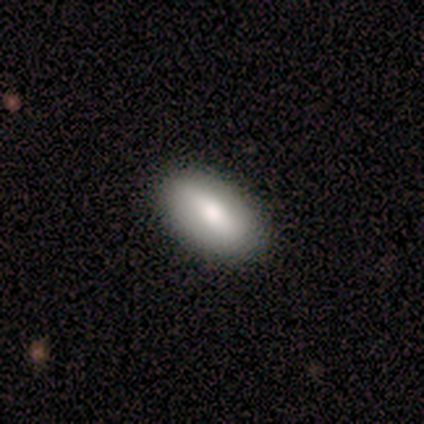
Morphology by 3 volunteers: Smooth or featured? 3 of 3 (100%) said smooth. How rounded? 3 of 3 (100%) said in between. Merging? 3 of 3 (100%) said none.